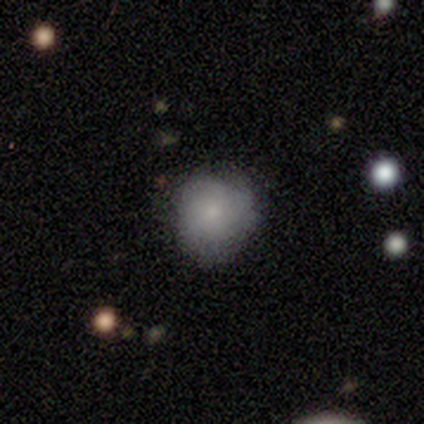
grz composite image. It shows a smooth galaxy with no disk features (50%, tied with featured or disk) that is round (100%). Merging: none (75%).